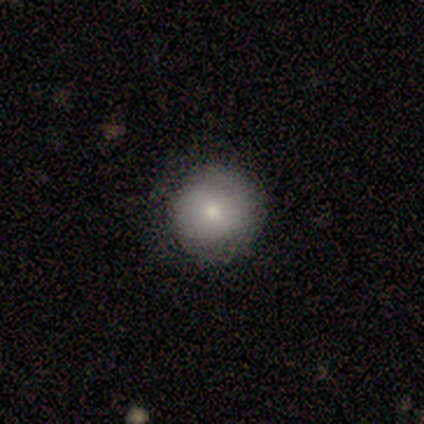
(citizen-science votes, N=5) A smooth galaxy with no disk features (80%) that is round (100%). Merging: none (100%).